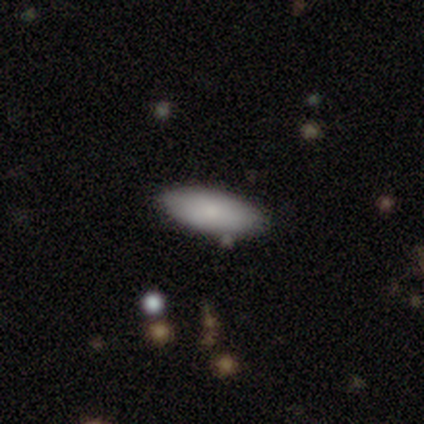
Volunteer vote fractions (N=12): A smooth galaxy with no disk features (92%) that is in between round and cigar-shaped (82%). Merging: none (75%).